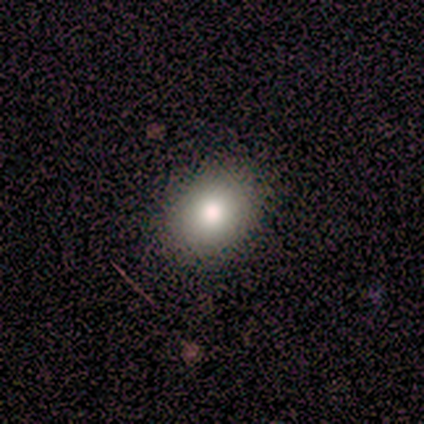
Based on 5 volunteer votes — This appears to be a smooth galaxy with no disk features (100%) that is round (80%). Merging: none (100%).